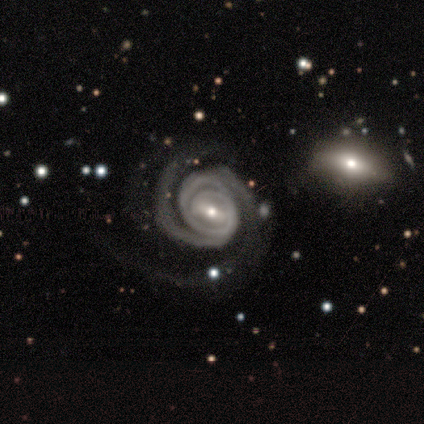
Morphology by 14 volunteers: smooth_or_featured: featured or disk (p=0.93) [alt: star or artifact p=0.07]
disk_edge_on: no (p=1.00)
bar: weak (p=0.62) [alt: strong p=0.38]
has_spiral_arms: yes (p=1.00)
spiral_winding: tight (p=0.62) [alt: medium p=0.23]
spiral_arm_count: 2 (p=0.69) [alt: 3 p=0.31]
bulge_size: small (p=0.62) [alt: moderate p=0.38]
merging: none (p=0.46) [alt: minor disturbance p=0.38]